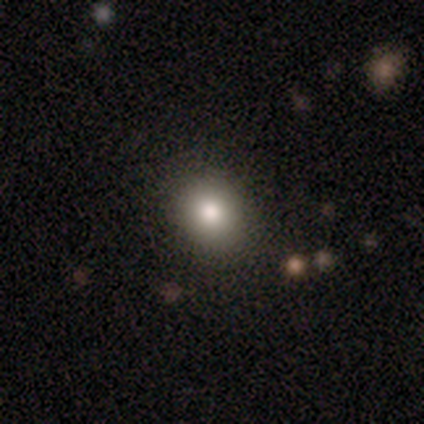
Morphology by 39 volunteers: Q: Smooth or featured?
A: smooth (79%); runner-up: featured or disk (10%)
Q: How rounded?
A: round (68%); runner-up: in between (32%)
Q: Merging?
A: none (86%); runner-up: minor disturbance (11%)